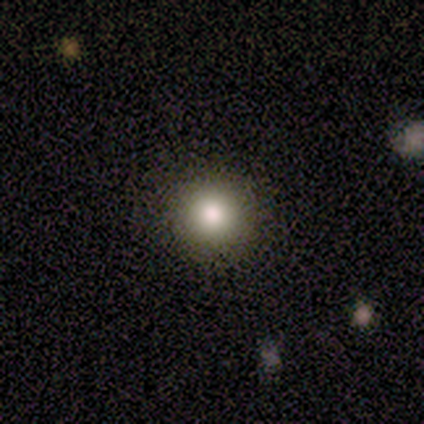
Smooth or featured? star or artifact (60%)